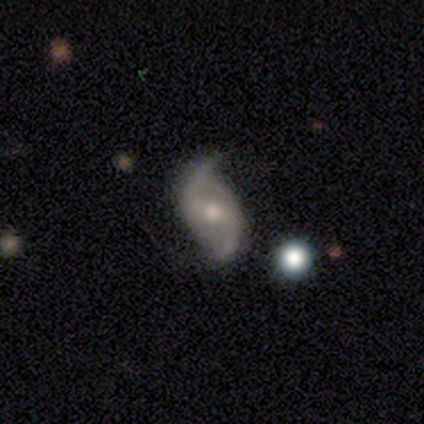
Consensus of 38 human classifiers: Smooth or featured? featured or disk (87%)
Edge-on disk? no (100%)
Bar? weak (70%)
Spiral arms? yes (100%)
Spiral winding? loose (67%)
Spiral arm count? 2 (91%)
Bulge size? moderate (52%)
Merging? none (66%)